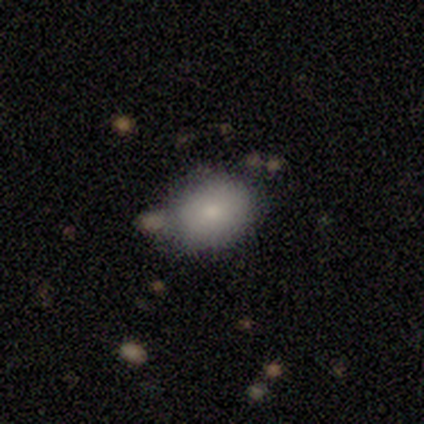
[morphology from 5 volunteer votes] type=smooth (100%); roundness=in between (60%); merging=none (80%).